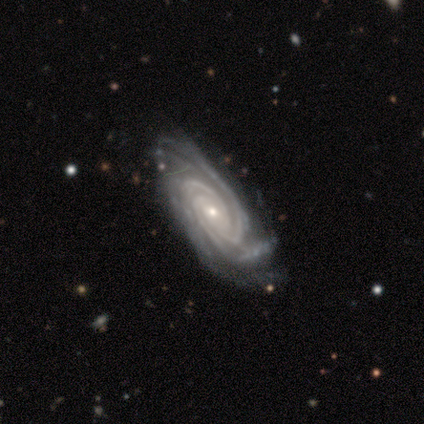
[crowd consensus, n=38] Q: Smooth or featured?
A: featured or disk (100%)
Q: Edge-on disk?
A: no (100%)
Q: Bar?
A: no (58%); runner-up: weak (29%)
Q: Spiral arms?
A: yes (100%)
Q: Spiral winding?
A: tight (89%); runner-up: medium (11%)
Q: Spiral arm count?
A: 3 (66%); runner-up: 4 (18%)
Q: Bulge size?
A: small (82%); runner-up: moderate (18%)
Q: Merging?
A: none (55%); runner-up: minor disturbance (13%)